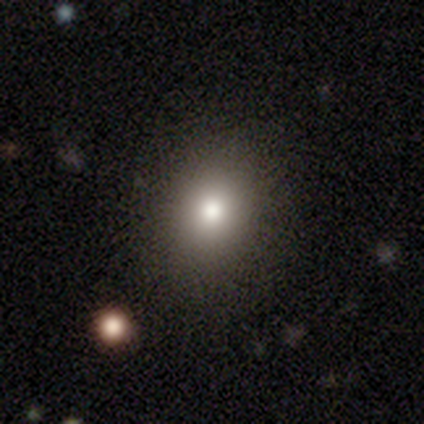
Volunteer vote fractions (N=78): Smooth or featured? 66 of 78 (85%) said smooth. How rounded? 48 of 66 (73%) said round. Merging? 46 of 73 (63%) said none.